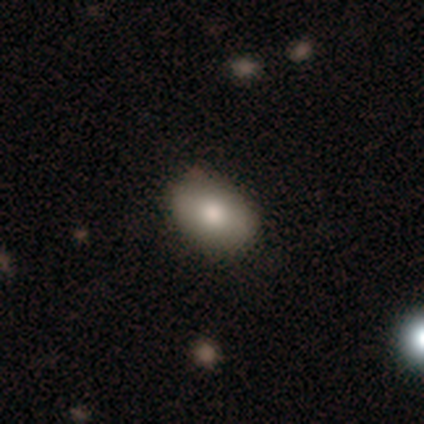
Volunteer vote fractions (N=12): A smooth galaxy with no disk features (83%) that is in between round and cigar-shaped (90%).

Vote fractions:
- Smooth or featured? smooth: 83% / featured or disk: 17% / star or artifact: 0%
- How rounded? in between: 90% / round: 10% / cigar-shaped: 0%
- Merging? none: 100% / minor disturbance: 0% / major disturbance: 0% / merger: 0%